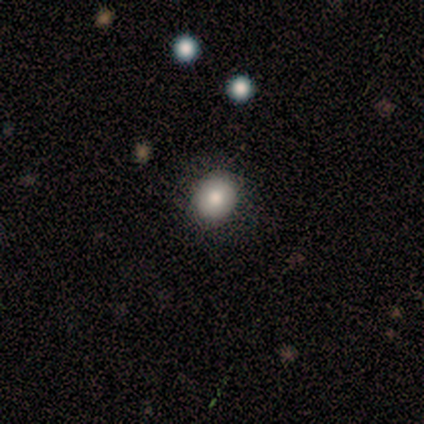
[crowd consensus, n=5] Smooth or featured? 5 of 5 (100%) said smooth. How rounded? 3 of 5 (60%) said round. Merging? 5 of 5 (100%) said none.